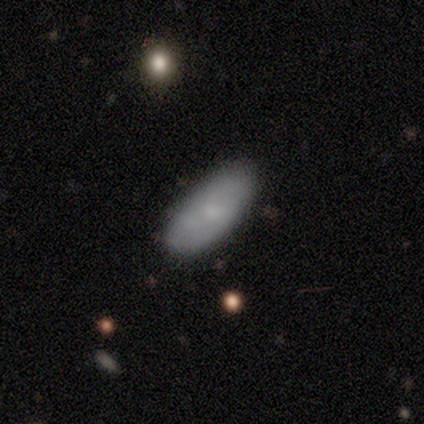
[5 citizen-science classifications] A smooth galaxy with no disk features (80%) that is in between round and cigar-shaped (75%). Merging: none (100%).